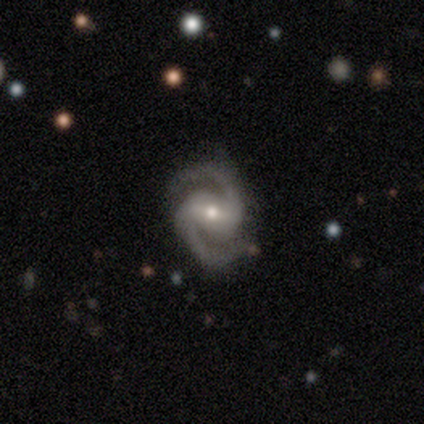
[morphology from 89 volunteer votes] type=featured or disk (94%); edge-on=no (99%); bar=weak (43%); spiral arms=yes (98%); winding=medium (67%); arm count=2 (100%); bulge=moderate (52%); merging=none (80%).